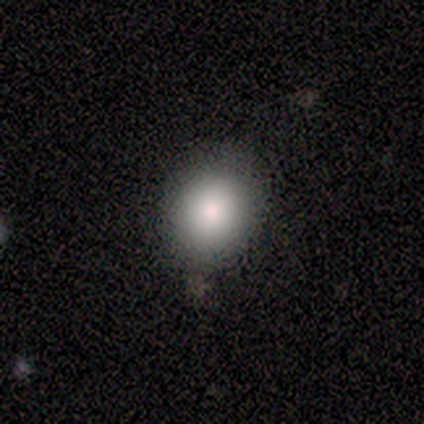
Smooth or featured? 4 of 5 (80%) said smooth. How rounded? 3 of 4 (75%) said round. Merging? 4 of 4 (100%) said none.